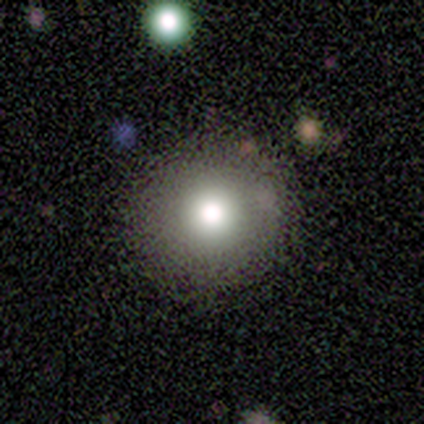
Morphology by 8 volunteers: Smooth or featured: smooth — 62% (featured or disk — 25%)
How rounded: round — 80% (in between — 20%)
Merging: none — 57% (minor disturbance — 43%)